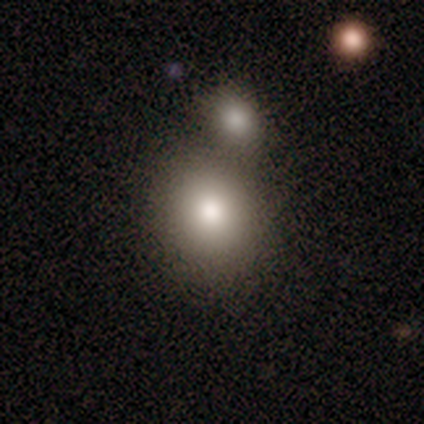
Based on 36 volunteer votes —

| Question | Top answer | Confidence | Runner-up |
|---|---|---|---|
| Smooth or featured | smooth | 86% | featured or disk (8%) |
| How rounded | round | 61% | in between (35%) |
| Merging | none | 62% | merger (24%) |